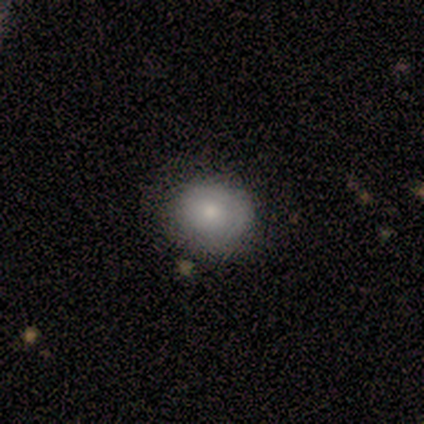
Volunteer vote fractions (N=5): A smooth galaxy with no disk features (100%) that is round (100%). Merging: none (60%).